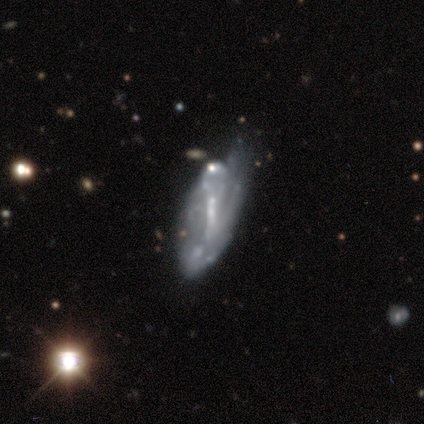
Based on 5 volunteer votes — Smooth or featured: featured or disk — 80% (smooth — 20%)
Edge-on disk: no — 100%
Bar: weak — 75% (strong — 25%)
Spiral arms: yes — 50% (tied with no — 50%)
Spiral winding: tight — 100%
Spiral arm count: 2 — 50% (tied with can't tell — 50%)
Bulge size: small — 50% (moderate — 25%)
Merging: major disturbance — 80% (minor disturbance — 20%)